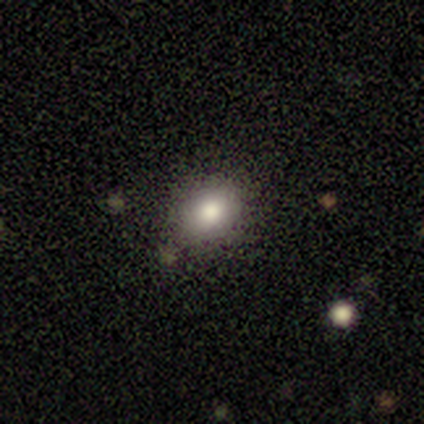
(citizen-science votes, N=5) Smooth or featured? smooth (100%)
How rounded? in between (60%)
Merging? none (80%)